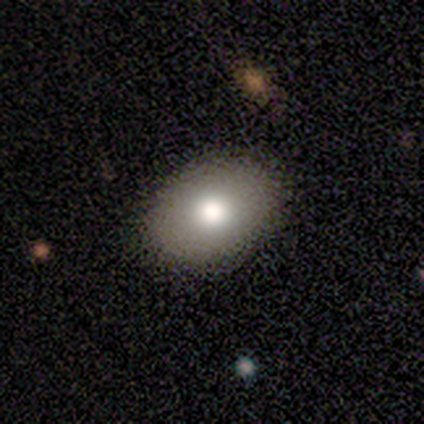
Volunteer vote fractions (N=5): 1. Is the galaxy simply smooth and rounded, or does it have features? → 80% smooth, 20% star or artifact, 0% featured or disk.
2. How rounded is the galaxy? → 75% in between, 25% round, 0% cigar-shaped.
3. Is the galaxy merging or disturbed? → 100% none, 0% minor disturbance, 0% major disturbance, 0% merger.